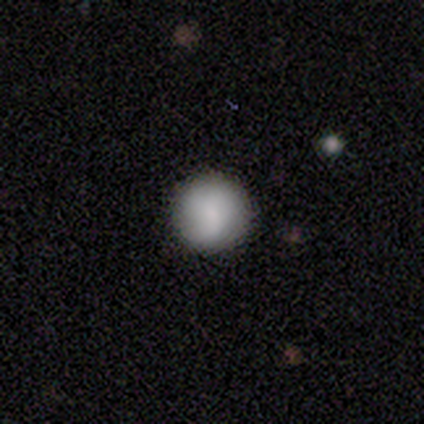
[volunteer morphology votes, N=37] A smooth galaxy with no disk features (78%) that is round (100%). Merging: none (88%).